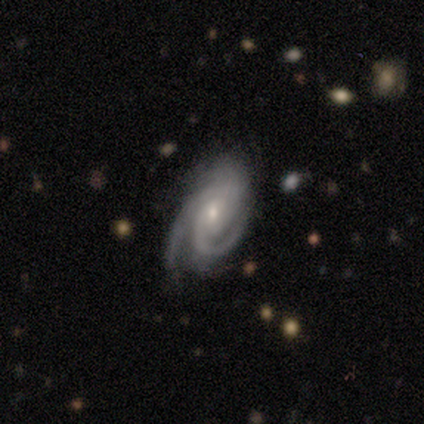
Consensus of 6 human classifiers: A featured or disk galaxy (67%) with no bar (75%), tight (100%) spiral arms (100%) and a small central bulge (100%). Merging: none (33%, tied with minor disturbance and major disturbance).